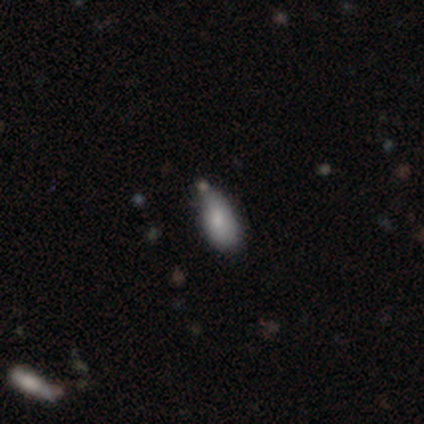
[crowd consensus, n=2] A smooth galaxy with no disk features (100%) that is in between round and cigar-shaped (50%, tied with cigar-shaped). Merging: none (50%, tied with minor disturbance).